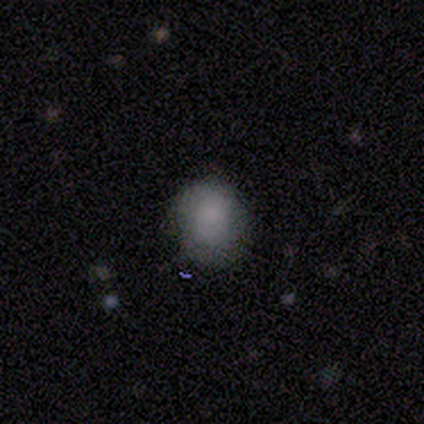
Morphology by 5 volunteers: This is clearly a smooth galaxy (100%). How rounded: likely in between (60%). Merging: likely none (60%).